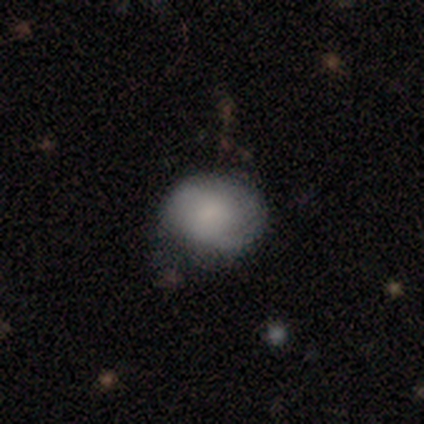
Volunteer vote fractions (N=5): This appears to be a smooth galaxy with no disk features (80%) that is round (50%, tied with in between). Merging: none (75%).